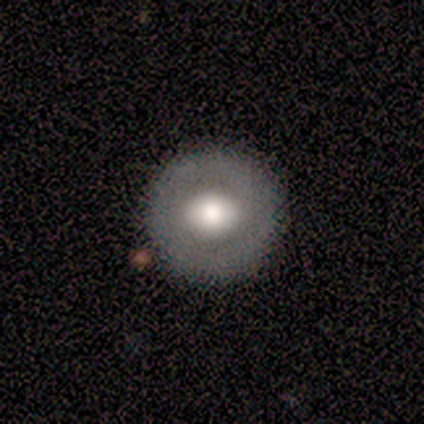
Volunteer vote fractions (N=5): A smooth galaxy with no disk features (80%) that is round (100%). Merging: none (100%).